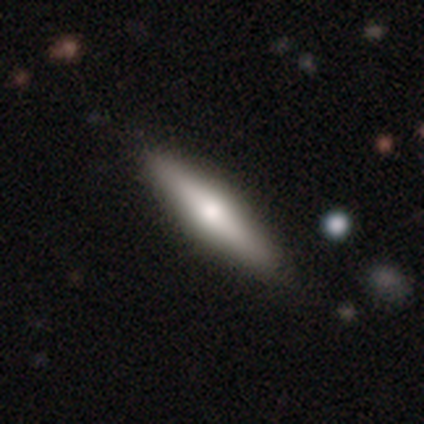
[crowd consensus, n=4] Smooth or featured? 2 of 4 (50%) said featured or disk. Edge-on disk? 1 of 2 (50%, tied with no) said yes. Edge-on bulge? 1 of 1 (100%) said rounded. Merging? 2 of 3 (67%) said none.